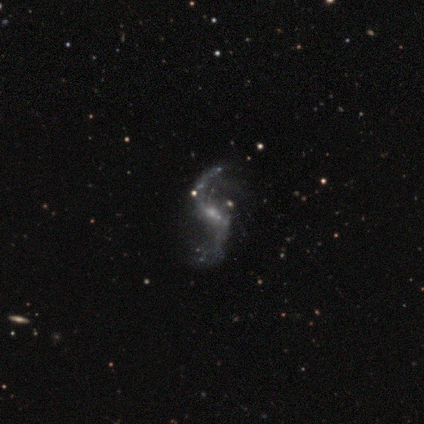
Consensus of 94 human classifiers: Smooth or featured: featured or disk — 94% (smooth — 3%)
Edge-on disk: no — 98% (yes — 2%)
Bar: weak — 49% (no — 29%)
Spiral arms: yes — 90% (no — 10%)
Spiral winding: loose — 95% (tight — 3%)
Spiral arm count: 2 — 86% (1 — 9%)
Bulge size: small — 64% (moderate — 20%)
Merging: none — 64% (minor disturbance — 22%)